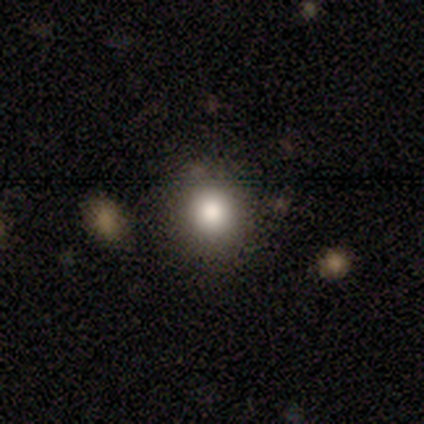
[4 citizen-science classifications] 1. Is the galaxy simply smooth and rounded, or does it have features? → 100% smooth, 0% featured or disk, 0% star or artifact.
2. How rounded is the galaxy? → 75% round, 25% in between, 0% cigar-shaped.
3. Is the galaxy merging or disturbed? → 100% none, 0% minor disturbance, 0% major disturbance, 0% merger.